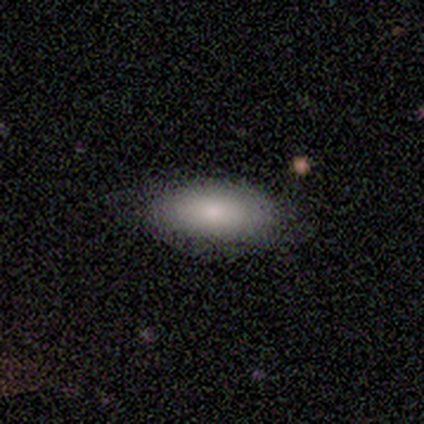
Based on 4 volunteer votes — Morphology: type=smooth (100%); roundness=in between (75%); merging=none (100%).